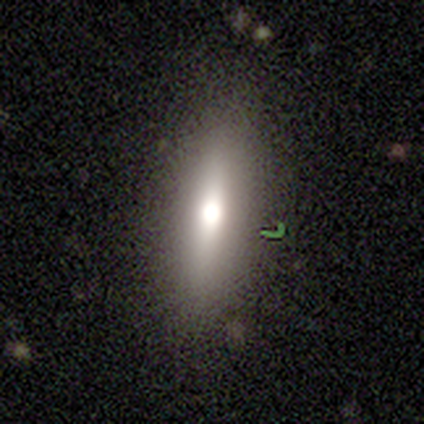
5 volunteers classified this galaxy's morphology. Overall: star or artifact (60%; smooth 40%).